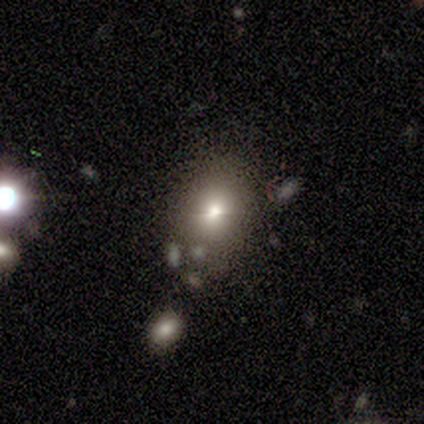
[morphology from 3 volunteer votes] smooth-or-featured: smooth: 67% | star or artifact: 33% | featured or disk: 0%
  how-rounded: round: 100% | in between: 0% | cigar-shaped: 0%
  merging: none: 100% | minor disturbance: 0% | major disturbance: 0% | merger: 0%